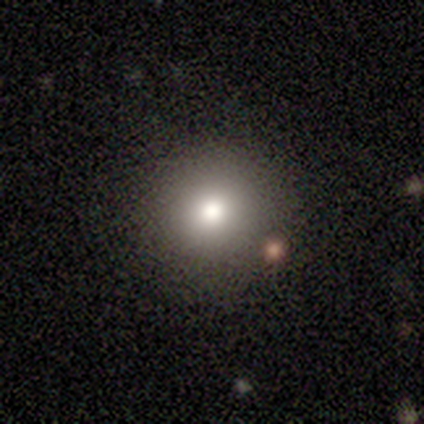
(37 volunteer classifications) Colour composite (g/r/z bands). It shows a smooth galaxy with no disk features (73%) that is round (100%). Merging: none (91%).